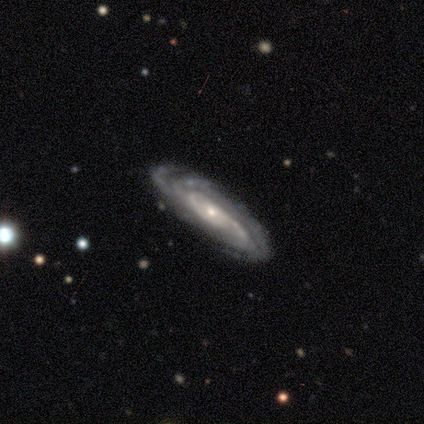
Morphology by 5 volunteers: A featured or disk galaxy (80%) viewed edge-on (50%, tied with no) with no central bulge (100%).

Vote fractions:
- Smooth or featured? featured or disk: 80% / smooth: 20% / star or artifact: 0%
- Edge-on disk? yes: 50% (tied) / no: 50% (tied)
- Edge-on bulge? none: 100% / boxy: 0% / rounded: 0%
- Merging? none: 80% / minor disturbance: 20% / major disturbance: 0% / merger: 0%